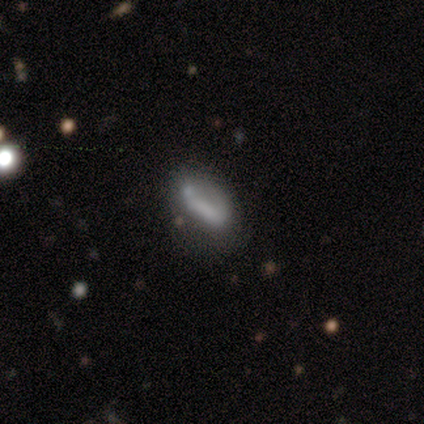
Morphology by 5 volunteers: Smooth or featured?
  - smooth: 40% * (tied)
  - featured or disk: 40% * (tied)
  - star or artifact: 20%
How rounded?
  - in between: 100% *
  - round: 0%
  - cigar-shaped: 0%
Merging?
  - major disturbance: 50% *
  - none: 25%
  - minor disturbance: 25%
  - merger: 0%